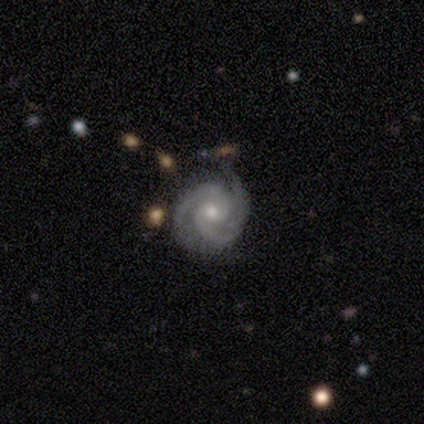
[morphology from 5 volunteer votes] Smooth or featured? featured or disk (80%)
Edge-on disk? no (100%)
Bar? no (100%)
Spiral arms? yes (100%)
Spiral winding? tight (50%)
Spiral arm count? 2 (50%, tied with 3)
Bulge size? moderate (100%)
Merging? none (100%)